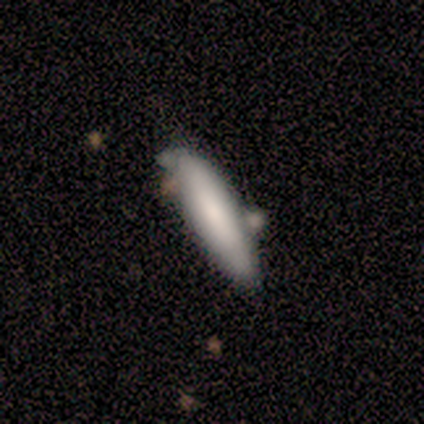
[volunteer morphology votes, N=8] Overall: smooth (88%). How rounded: cigar-shaped (86%). Merging: none (62%; merger 25%).